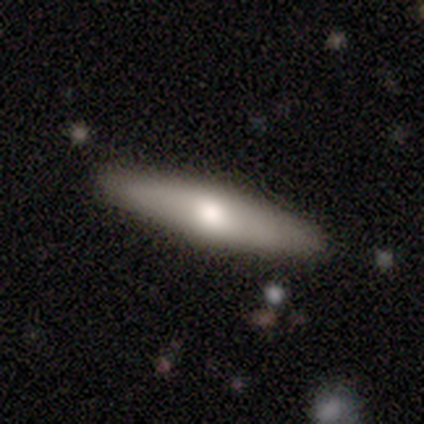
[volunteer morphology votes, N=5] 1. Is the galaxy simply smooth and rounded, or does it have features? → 60% smooth, 40% featured or disk, 0% star or artifact.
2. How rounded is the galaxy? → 67% cigar-shaped, 33% in between, 0% round.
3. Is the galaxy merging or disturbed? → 100% none, 0% minor disturbance, 0% major disturbance, 0% merger.